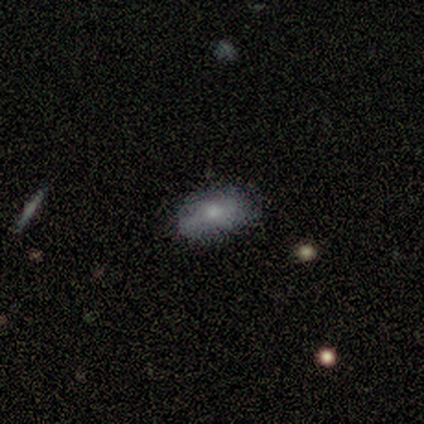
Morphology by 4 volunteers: This appears to be a smooth galaxy with no disk features (50%) that is in between round and cigar-shaped (100%). Merging: none (67%).